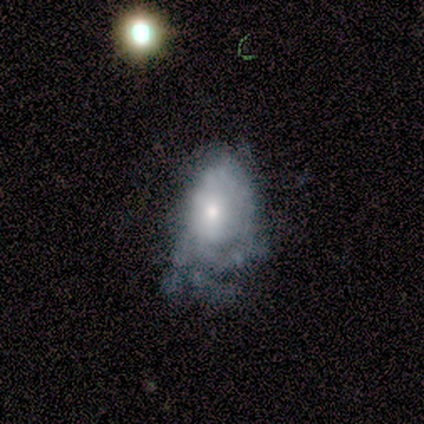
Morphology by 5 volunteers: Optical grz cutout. It shows a featured or disk galaxy (100%) with no bar (100%), tight (40%, tied with loose) spiral arms (100%) and a moderate central bulge (80%). Merging: major disturbance (60%).